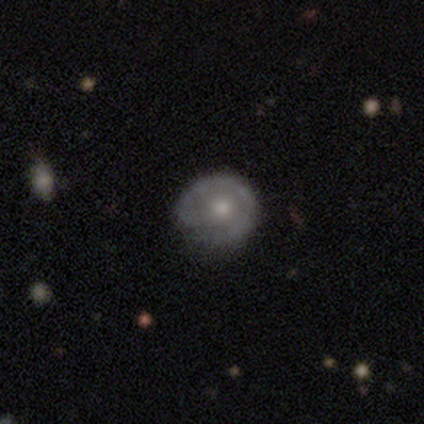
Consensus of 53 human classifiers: This is possibly a featured or disk galaxy (55%). It is clearly not viewed edge-on (100%). Bar: clearly no (90%). Spiral arm pattern: possibly yes (55%). Spiral arm count: possibly 1 (56%). Spiral winding: likely tight (69%). Central bulge: likely moderate (62%). Merging: likely none (78%).